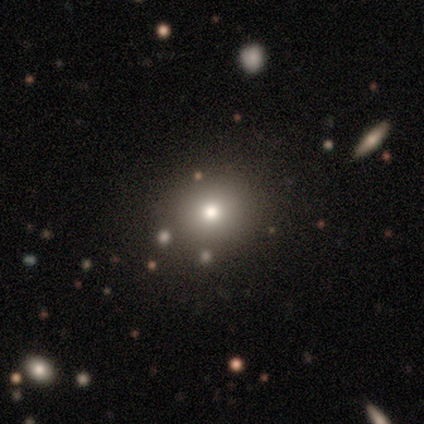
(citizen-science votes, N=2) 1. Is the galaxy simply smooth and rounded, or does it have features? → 100% smooth, 0% featured or disk, 0% star or artifact.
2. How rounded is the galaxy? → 100% in between, 0% round, 0% cigar-shaped.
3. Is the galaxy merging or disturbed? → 50% none (tied), 50% minor disturbance (tied), 0% major disturbance, 0% merger.